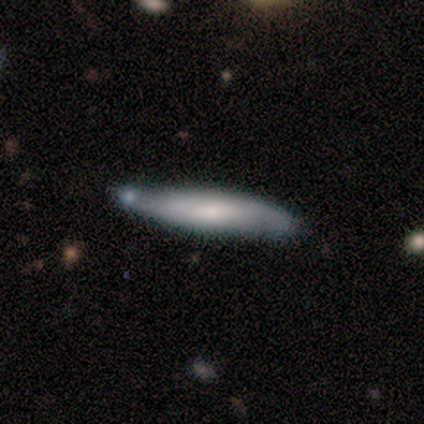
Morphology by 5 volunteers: This is likely a featured or disk galaxy (60%). It is likely viewed edge-on (67%). Edge-on bulge: clearly none (100%). Merging: marginally none (40%, tied with minor disturbance).